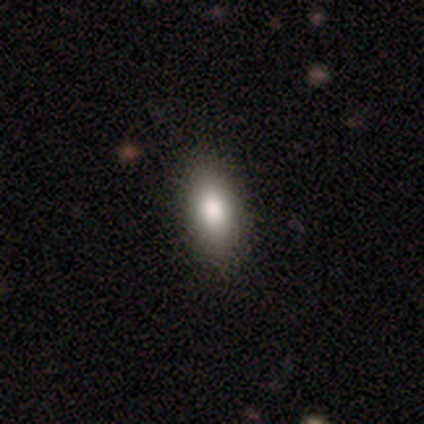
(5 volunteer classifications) Q: Smooth or featured?
A: smooth (100%)
Q: How rounded?
A: in between (100%)
Q: Merging?
A: none (80%); runner-up: minor disturbance (20%)